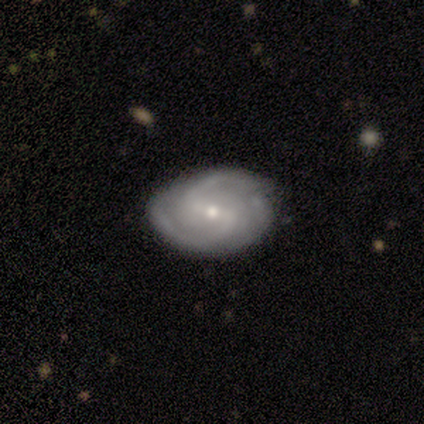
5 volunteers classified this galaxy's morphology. This appears to be a featured or disk galaxy (100%) with a weak bar (50%), 2 (50%, tied with can't tell) tight (50%) spiral arms (100%) and a small central bulge (75%). Merging: none (80%).